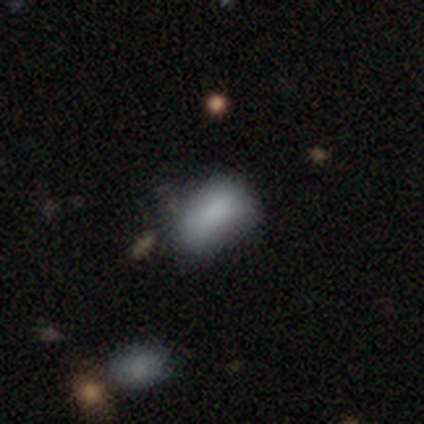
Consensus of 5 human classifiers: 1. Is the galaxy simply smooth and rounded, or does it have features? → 100% smooth, 0% featured or disk, 0% star or artifact.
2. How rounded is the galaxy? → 80% in between, 20% round, 0% cigar-shaped.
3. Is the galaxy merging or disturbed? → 40% none (tied), 40% minor disturbance (tied), 20% major disturbance, 0% merger.